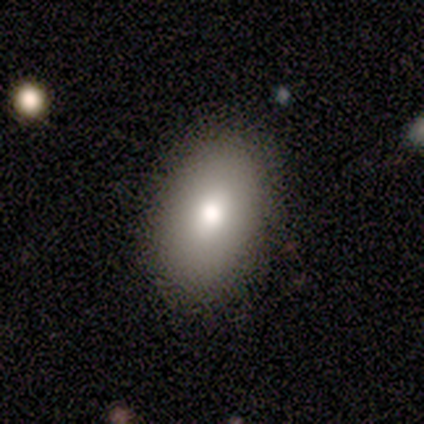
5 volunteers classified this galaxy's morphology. This appears to be a smooth galaxy with no disk features (100%) that is in between round and cigar-shaped (100%). Merging: none (80%).